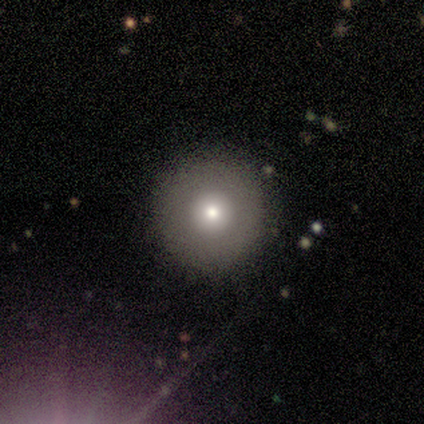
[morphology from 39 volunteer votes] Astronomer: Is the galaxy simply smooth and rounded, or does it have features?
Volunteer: smooth — 74%.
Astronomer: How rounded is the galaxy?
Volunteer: round — 97%.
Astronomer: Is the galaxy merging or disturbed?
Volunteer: none — 89%.